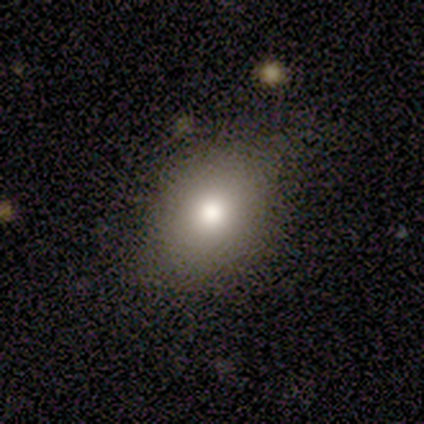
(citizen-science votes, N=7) This appears to be a smooth galaxy with no disk features (57%) that is in between round and cigar-shaped (75%). Merging: none (100%).